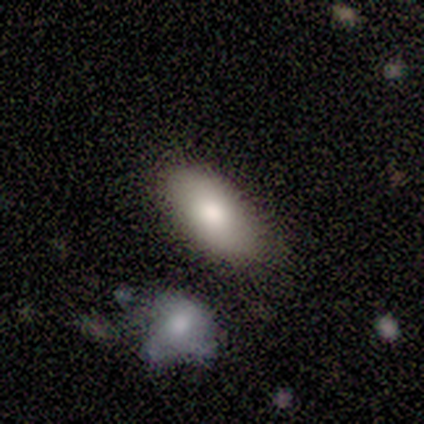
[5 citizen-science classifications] smooth-or-featured: smooth: 60% | featured or disk: 20% | star or artifact: 20%
  how-rounded: in between: 100% | round: 0% | cigar-shaped: 0%
  merging: none: 100% | minor disturbance: 0% | major disturbance: 0% | merger: 0%